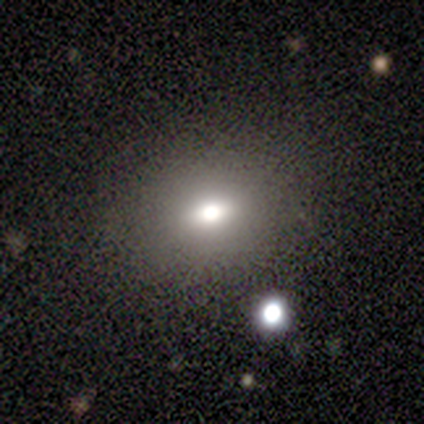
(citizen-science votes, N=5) Smooth or featured: smooth — 100%
How rounded: in between — 100%
Merging: none — 40% (tied with minor disturbance — 40%)